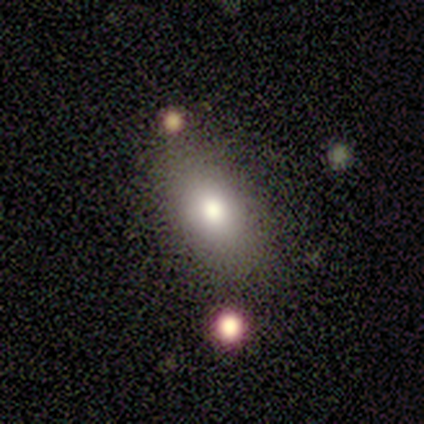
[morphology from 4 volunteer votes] A smooth galaxy with no disk features (50%) that is in between round and cigar-shaped (100%).

Vote fractions:
- Smooth or featured? smooth: 50% / featured or disk: 25% / star or artifact: 25%
- How rounded? in between: 100% / round: 0% / cigar-shaped: 0%
- Merging? none: 67% / merger: 33% / minor disturbance: 0% / major disturbance: 0%